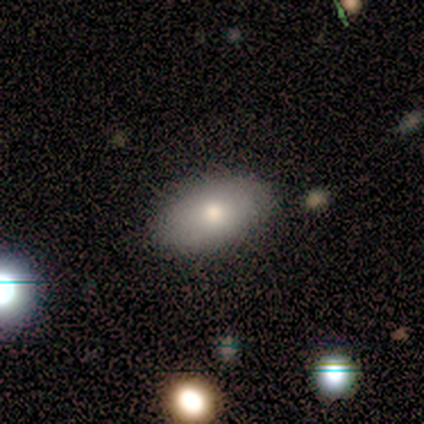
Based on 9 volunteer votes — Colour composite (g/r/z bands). It shows a smooth galaxy with no disk features (100%) that is in between round and cigar-shaped (89%). Merging: none (100%).